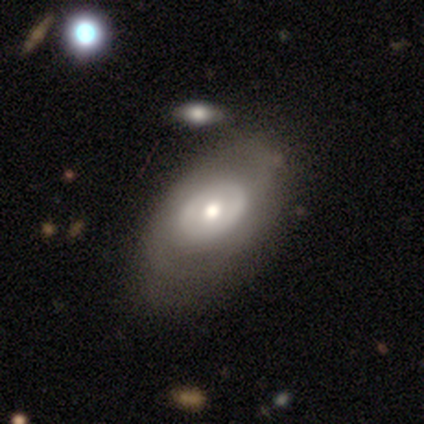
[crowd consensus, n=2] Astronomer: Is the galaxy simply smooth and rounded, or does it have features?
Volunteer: featured or disk — 100%.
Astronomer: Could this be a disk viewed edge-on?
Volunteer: no — 100%.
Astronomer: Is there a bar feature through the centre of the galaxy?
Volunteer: no — 100%.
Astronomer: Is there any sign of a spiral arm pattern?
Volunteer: yes — 50%, tied with no at 50%.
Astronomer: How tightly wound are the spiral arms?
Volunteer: tight — 100%.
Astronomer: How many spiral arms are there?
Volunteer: can't tell — 100%.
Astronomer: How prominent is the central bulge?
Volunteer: moderate — 100%.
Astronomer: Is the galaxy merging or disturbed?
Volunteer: none — 50%, tied with minor disturbance at 50%.